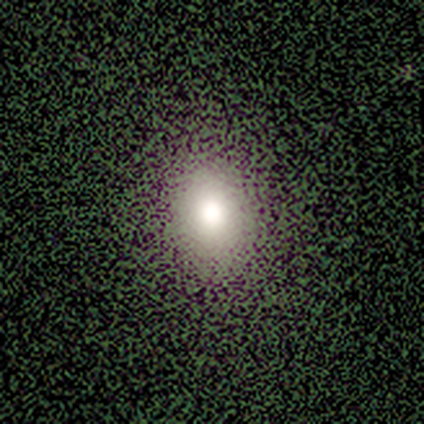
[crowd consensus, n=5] Smooth or featured: smooth — 80% (star or artifact — 20%)
How rounded: round — 50% (tied with in between — 50%)
Merging: none — 100%